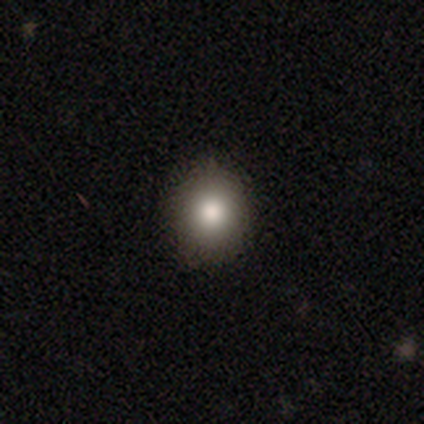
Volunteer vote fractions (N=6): Smooth or featured?
  - smooth: 100% *
  - featured or disk: 0%
  - star or artifact: 0%
How rounded?
  - round: 83% *
  - in between: 17%
  - cigar-shaped: 0%
Merging?
  - none: 100% *
  - minor disturbance: 0%
  - major disturbance: 0%
  - merger: 0%